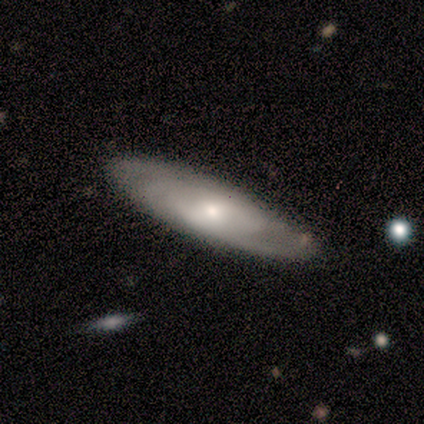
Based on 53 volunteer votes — featured or disk 70%, smooth 28%, star or artifact 2%. Down the decision tree: edge-on disk — no (81%); bar — no (50%); spiral arms — yes (87%); spiral arm count — can't tell (42%); spiral winding — tight (69%); bulge size — moderate (53%); merging — none (81%).